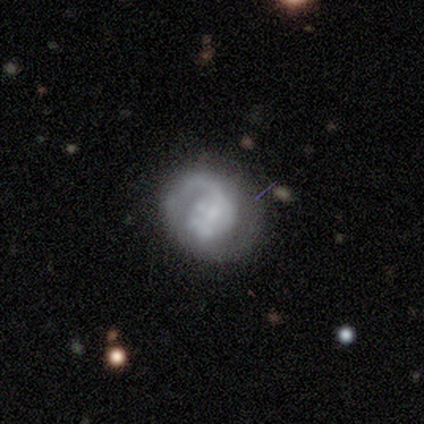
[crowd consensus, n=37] Morphology: type=featured or disk (78%); edge-on=no (93%); bar=no (81%); spiral arms=yes (74%); winding=medium (45%); arm count=1 (55%); bulge=none (41%); merging=none (46%).